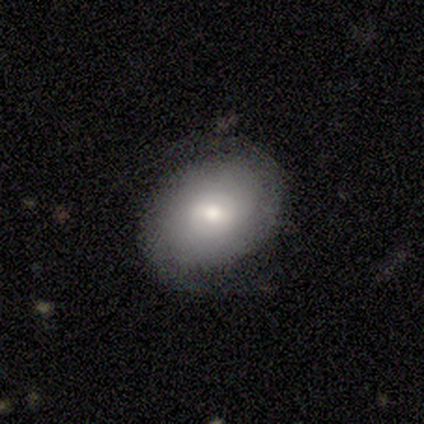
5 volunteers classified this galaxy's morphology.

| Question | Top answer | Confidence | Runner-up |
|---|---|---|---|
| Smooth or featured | smooth | 60% | featured or disk (40%) |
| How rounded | round | 67% | in between (33%) |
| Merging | none | 100% | — |